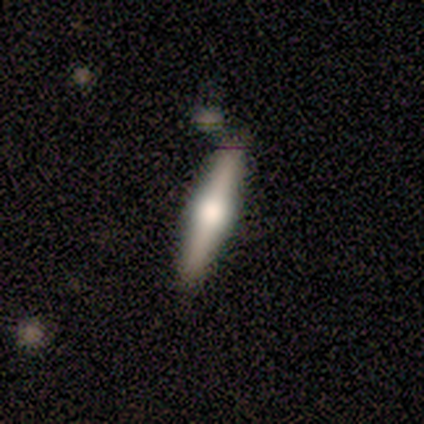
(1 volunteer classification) smooth-or-featured: featured or disk: 100% | smooth: 0% | star or artifact: 0%
  disk-edge-on: yes: 100% | no: 0%
    edge-on-bulge: rounded: 100% | boxy: 0% | none: 0%
  merging: none: 100% | minor disturbance: 0% | major disturbance: 0% | merger: 0%